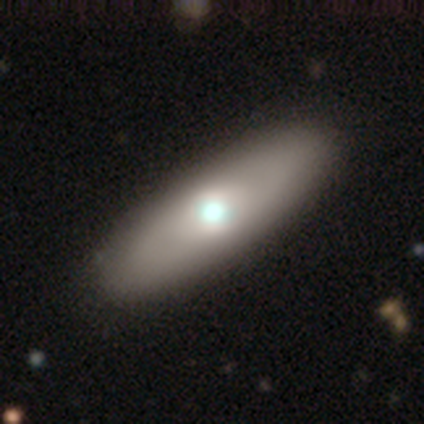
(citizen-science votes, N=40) A smooth galaxy with no disk features (60%) that is in between round and cigar-shaped (71%).

Vote fractions:
- Smooth or featured? smooth: 60% / featured or disk: 40% / star or artifact: 0%
- How rounded? in between: 71% / cigar-shaped: 29% / round: 0%
- Merging? none: 68% / minor disturbance: 2% / major disturbance: 0% / merger: 0%